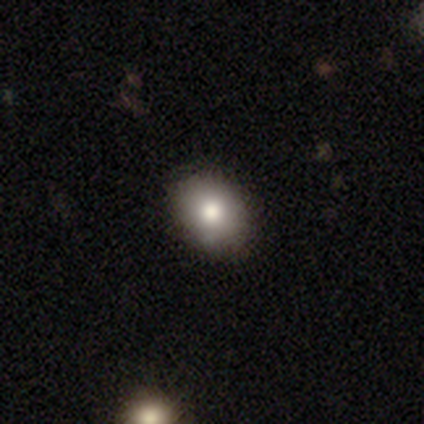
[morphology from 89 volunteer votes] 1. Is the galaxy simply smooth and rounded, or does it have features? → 73% smooth, 15% featured or disk, 12% star or artifact.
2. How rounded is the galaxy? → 62% in between, 37% round, 2% cigar-shaped.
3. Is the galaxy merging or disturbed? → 85% none, 13% minor disturbance, 1% major disturbance, 1% merger.